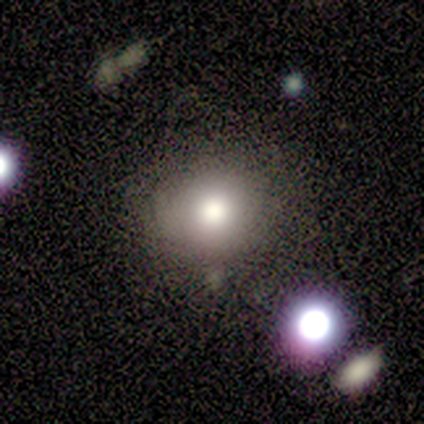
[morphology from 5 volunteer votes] smooth_or_featured: smooth (p=0.80) [alt: featured or disk p=0.20]
how_rounded: round (p=1.00)
merging: none (p=0.80) [alt: minor disturbance p=0.20]